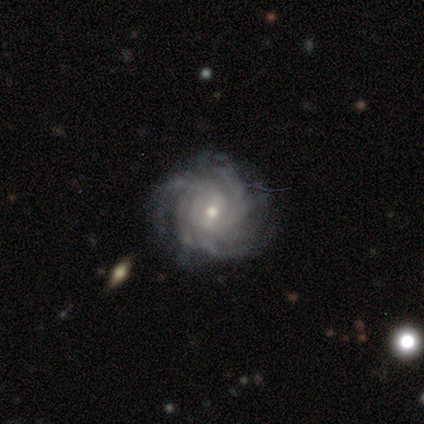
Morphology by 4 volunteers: type=featured or disk (100%); edge-on=no (75%); bar=weak (67%); spiral arms=yes (100%); winding=tight (67%); arm count=4 (33%, tied with more than 4 and can't tell); bulge=moderate (67%); merging=none (100%).